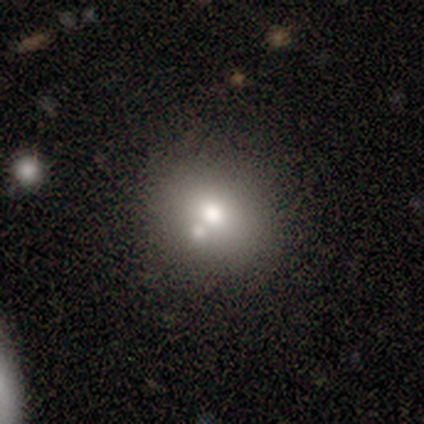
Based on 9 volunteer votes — Q: Smooth or featured?
A: smooth (44%); runner-up: featured or disk (33%)
Q: How rounded?
A: in between (100%)
Q: Merging?
A: none (71%); runner-up: merger (29%)